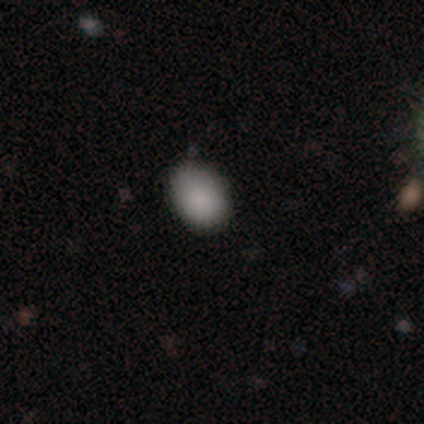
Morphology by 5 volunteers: smooth_or_featured: smooth (p=0.80) [alt: star or artifact p=0.20]
how_rounded: in between (p=0.75) [alt: round p=0.25]
merging: none (p=0.75) [alt: merger p=0.25]